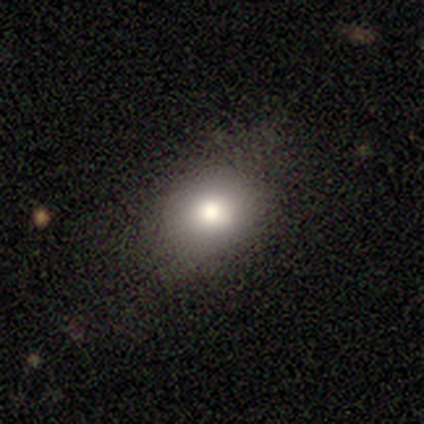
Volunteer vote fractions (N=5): smooth 100%, featured or disk 0%, star or artifact 0%. Down the decision tree: how rounded — in between (80%); merging — none (100%).